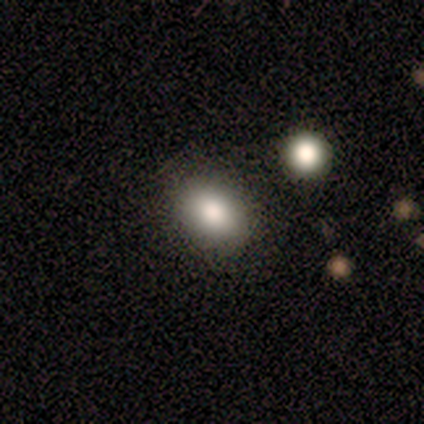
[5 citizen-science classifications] Q: Smooth or featured?
A: smooth (100%)
Q: How rounded?
A: in between (80%); runner-up: cigar-shaped (20%)
Q: Merging?
A: none (80%); runner-up: minor disturbance (20%)